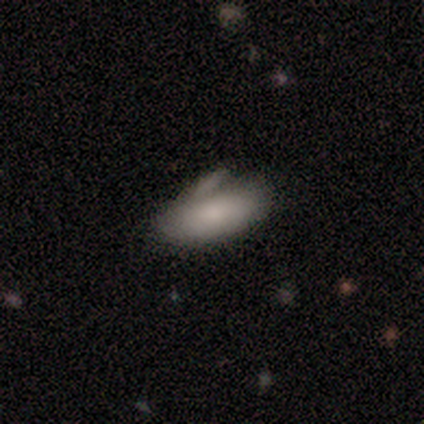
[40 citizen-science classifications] Q: Smooth or featured?
A: smooth (78%); runner-up: featured or disk (20%)
Q: How rounded?
A: in between (90%); runner-up: cigar-shaped (10%)
Q: Merging?
A: none (49%); runner-up: minor disturbance (36%)